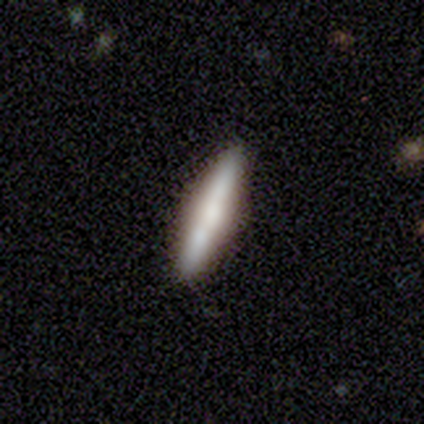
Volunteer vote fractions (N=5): Smooth or featured: featured or disk — 60% (smooth — 40%)
Edge-on disk: yes — 100%
Edge-on bulge: rounded — 100%
Merging: none — 100%